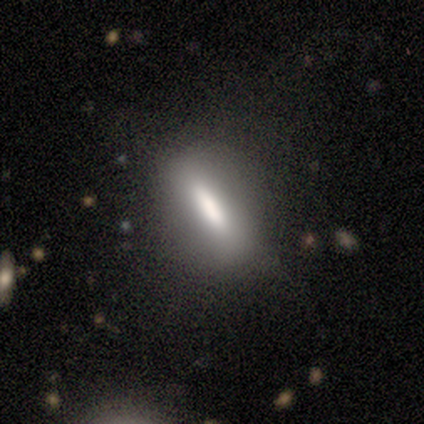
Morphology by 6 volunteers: Q: Smooth or featured?
A: smooth (83%); runner-up: featured or disk (17%)
Q: How rounded?
A: in between (60%); runner-up: round (20%)
Q: Merging?
A: none (33%); tied with: merger (33%)